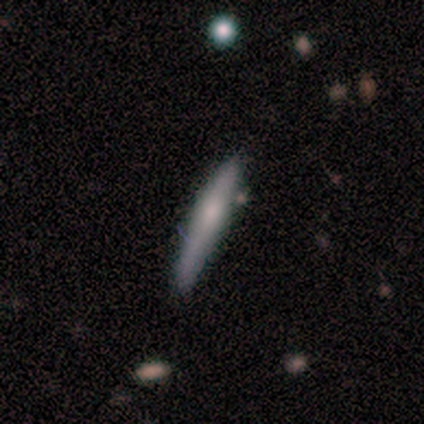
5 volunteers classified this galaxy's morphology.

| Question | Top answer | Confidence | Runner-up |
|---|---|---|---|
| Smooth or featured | smooth | 80% | featured or disk (20%) |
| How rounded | cigar-shaped | 100% | — |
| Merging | none | 60% | minor disturbance (40%) |